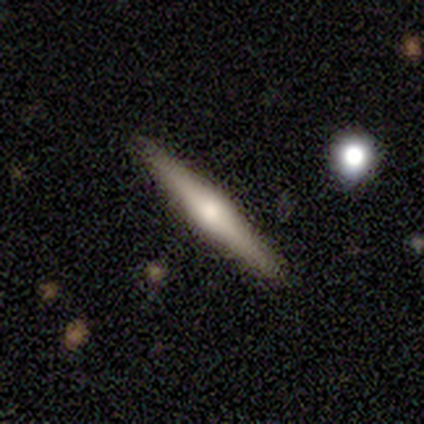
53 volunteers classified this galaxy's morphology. featured or disk 77%, smooth 19%, star or artifact 4%. Down the decision tree: edge-on disk — yes (95%); edge-on bulge — rounded (92%); merging — none (86%).